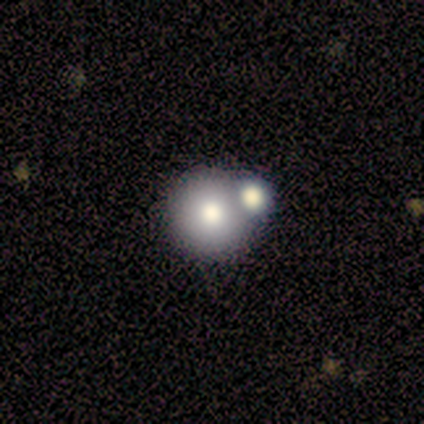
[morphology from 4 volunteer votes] A smooth galaxy with no disk features (75%) that is round (100%). Merging: none (75%).